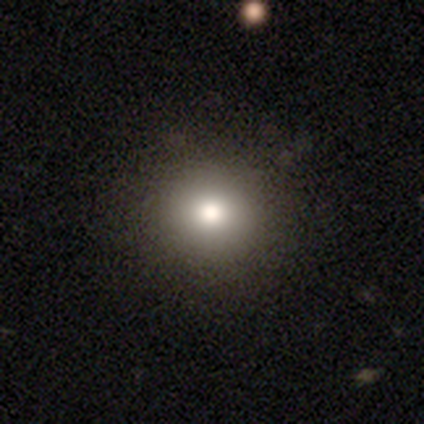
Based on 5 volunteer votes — smooth-or-featured: smooth: 100% | featured or disk: 0% | star or artifact: 0%
  how-rounded: round: 100% | in between: 0% | cigar-shaped: 0%
  merging: none: 100% | minor disturbance: 0% | major disturbance: 0% | merger: 0%